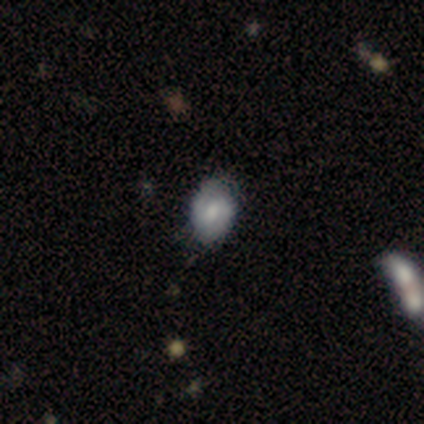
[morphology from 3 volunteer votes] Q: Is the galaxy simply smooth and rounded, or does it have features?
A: featured or disk — 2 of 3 (67%).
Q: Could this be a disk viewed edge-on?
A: no — 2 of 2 (100%).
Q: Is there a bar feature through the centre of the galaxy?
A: no — 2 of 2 (100%).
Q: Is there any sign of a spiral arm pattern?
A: yes — 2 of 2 (100%).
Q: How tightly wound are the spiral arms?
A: tight — 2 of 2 (100%).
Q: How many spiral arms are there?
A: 2 — 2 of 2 (100%).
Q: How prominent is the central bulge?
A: large — 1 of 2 (50%, tied with moderate).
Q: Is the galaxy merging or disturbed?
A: none — 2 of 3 (67%).